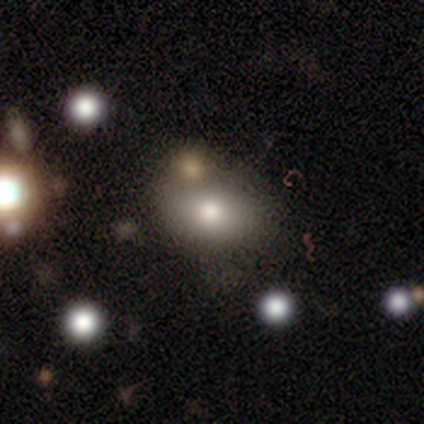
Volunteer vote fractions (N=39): Smooth or featured? 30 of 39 (77%) said smooth. How rounded? 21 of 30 (70%) said in between. Merging? 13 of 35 (37%) said none.